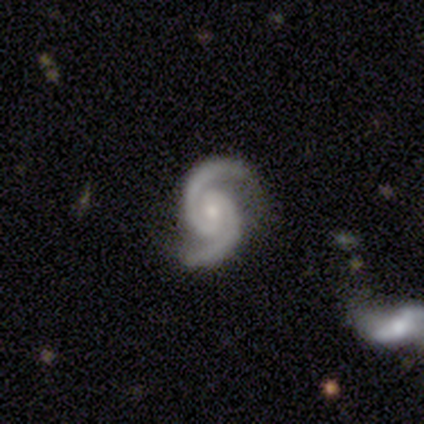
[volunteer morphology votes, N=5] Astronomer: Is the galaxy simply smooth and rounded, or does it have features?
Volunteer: featured or disk — 100%.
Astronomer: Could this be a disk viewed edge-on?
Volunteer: no — 100%.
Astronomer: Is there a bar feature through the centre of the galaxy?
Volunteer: strong — 40%, tied with weak at 40%.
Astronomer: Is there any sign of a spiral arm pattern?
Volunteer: yes — 100%.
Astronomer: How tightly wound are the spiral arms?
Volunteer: medium — 40%, tied with loose at 40%.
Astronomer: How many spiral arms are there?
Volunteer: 2 — 100%.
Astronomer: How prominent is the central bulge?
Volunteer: small — 60% (runner-up: moderate, 40%).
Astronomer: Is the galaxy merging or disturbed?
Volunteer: none — 80%.